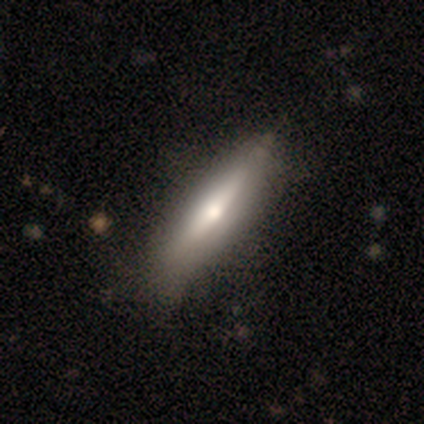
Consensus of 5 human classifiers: Morphology: type=smooth (60%); roundness=cigar-shaped (100%); merging=none (75%).